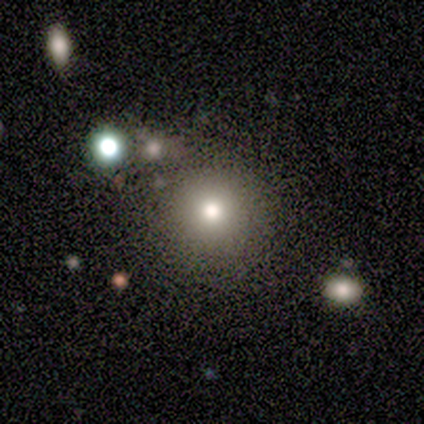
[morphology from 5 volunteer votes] smooth 100%, featured or disk 0%, star or artifact 0%. Down the decision tree: how rounded — round (100%); merging — none (100%).